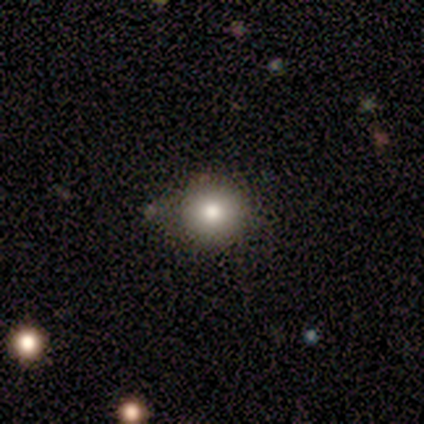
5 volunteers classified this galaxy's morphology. A smooth galaxy with no disk features (60%) that is round (67%). Merging: minor disturbance (67%).